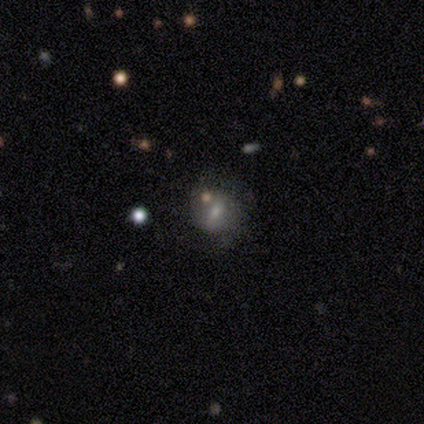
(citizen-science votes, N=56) Smooth or featured: smooth — 41% (featured or disk — 38%)
How rounded: round — 65% (in between — 30%)
Merging: none — 48% (minor disturbance — 32%)